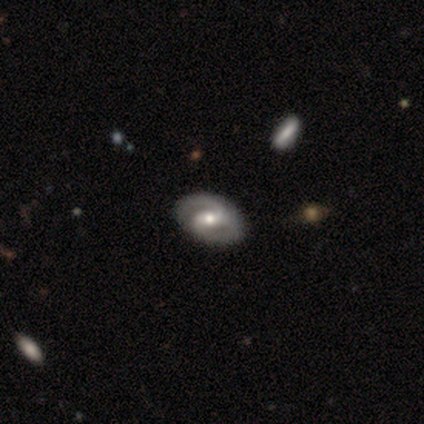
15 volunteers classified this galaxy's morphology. Volunteers were most divided on "spiral winding": medium: 45%, tight: 27%, loose: 27%. More confident: spiral arm count — 2 (100%); edge-on disk — no (92%); spiral arms — yes (92%); bulge size — moderate (92%); smooth or featured — featured or disk (87%); merging — none (80%); bar — weak (67%).